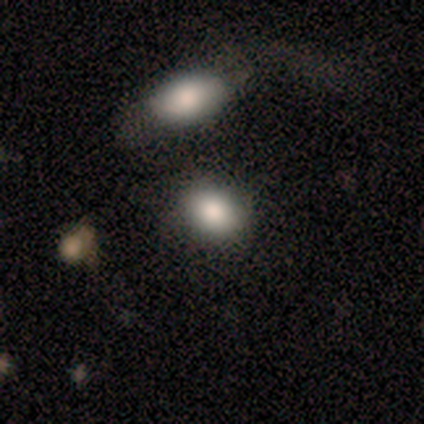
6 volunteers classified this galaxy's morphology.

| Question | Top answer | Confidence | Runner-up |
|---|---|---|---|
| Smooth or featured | smooth | 100% | — |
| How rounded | in between | 67% | round (33%) |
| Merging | none | 67% | minor disturbance (17%) |